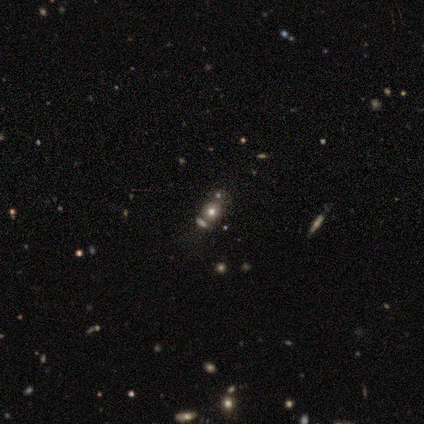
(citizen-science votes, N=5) Volunteers were most divided on "how rounded" (2-way tie): round: 50%, in between: 50%, cigar-shaped: 0%. More confident: smooth or featured — smooth (80%); merging — minor disturbance (50%).